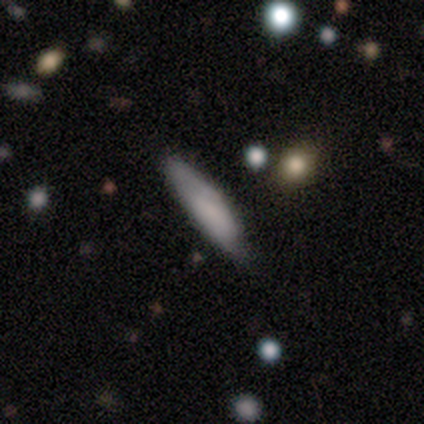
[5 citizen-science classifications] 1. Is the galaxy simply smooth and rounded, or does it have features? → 60% smooth, 40% featured or disk, 0% star or artifact.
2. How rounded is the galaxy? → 67% cigar-shaped, 33% in between, 0% round.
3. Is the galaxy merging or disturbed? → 60% none, 20% minor disturbance, 20% major disturbance, 0% merger.